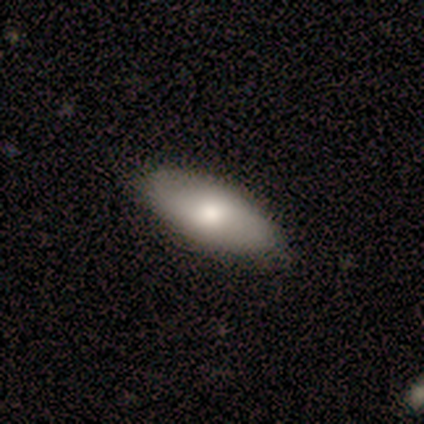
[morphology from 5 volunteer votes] This is clearly a smooth galaxy (80%). How rounded: clearly in between (100%). Merging: clearly none (100%).